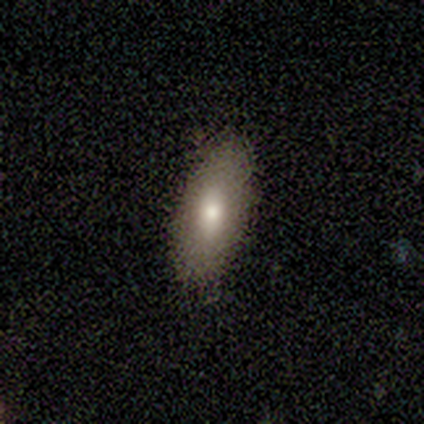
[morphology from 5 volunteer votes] A featured or disk galaxy (80%) viewed edge-on (50%, tied with no) with a rounded central bulge (100%).

Vote fractions:
- Smooth or featured? featured or disk: 80% / smooth: 20% / star or artifact: 0%
- Edge-on disk? yes: 50% (tied) / no: 50% (tied)
- Edge-on bulge? rounded: 100% / boxy: 0% / none: 0%
- Merging? none: 100% / minor disturbance: 0% / major disturbance: 0% / merger: 0%